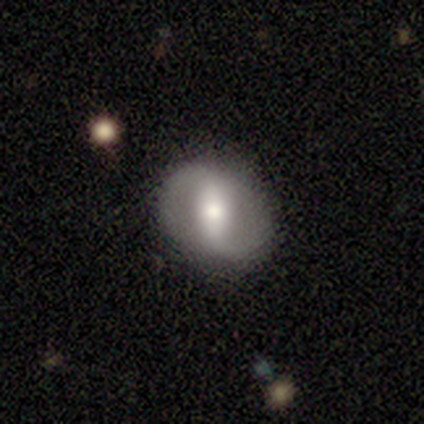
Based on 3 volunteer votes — featured or disk 100%, smooth 0%, star or artifact 0%. Down the decision tree: edge-on disk — no (100%); bar — strong (100%); spiral arms — yes (67%); spiral arm count — 2 (100%); spiral winding — medium (50%, tied with loose); bulge size — moderate (100%); merging — none (100%).